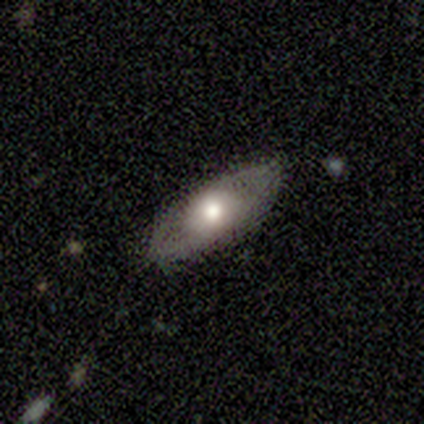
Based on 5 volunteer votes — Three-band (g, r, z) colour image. It shows a smooth galaxy with no disk features (60%) that is in between round and cigar-shaped (67%). Merging: none (80%).